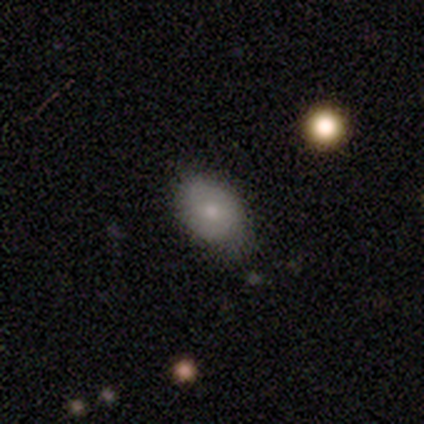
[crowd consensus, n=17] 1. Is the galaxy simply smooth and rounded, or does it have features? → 82% smooth, 18% featured or disk, 0% star or artifact.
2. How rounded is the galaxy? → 93% in between, 7% round, 0% cigar-shaped.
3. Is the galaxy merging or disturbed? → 59% none, 41% minor disturbance, 0% major disturbance, 0% merger.